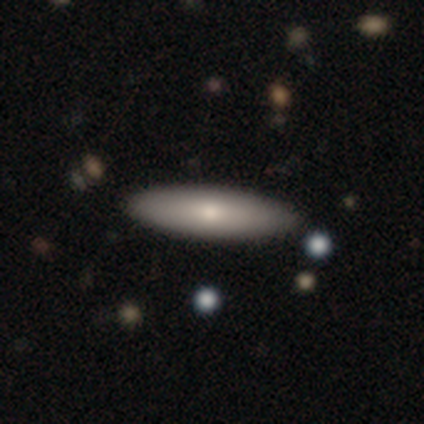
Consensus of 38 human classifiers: This is likely a smooth galaxy (79%). How rounded: likely cigar-shaped (67%). Merging: clearly none (89%).